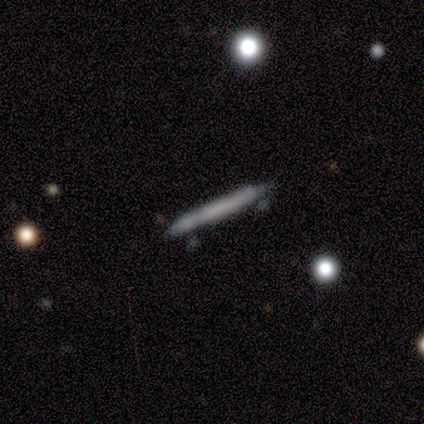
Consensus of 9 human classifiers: Smooth or featured?
  - smooth: 67% *
  - featured or disk: 33%
  - star or artifact: 0%
How rounded?
  - cigar-shaped: 100% *
  - round: 0%
  - in between: 0%
Merging?
  - none: 78% *
  - minor disturbance: 22%
  - major disturbance: 0%
  - merger: 0%